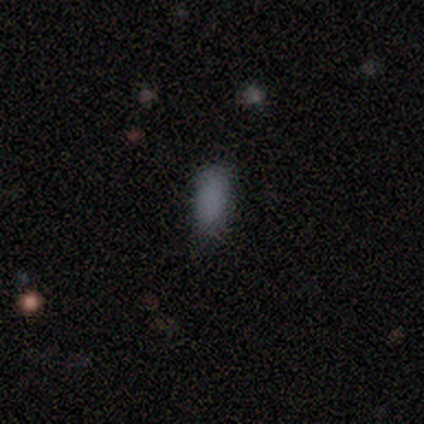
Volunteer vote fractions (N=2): Morphology: type=smooth (100%); roundness=in between (100%); merging=none (100%).